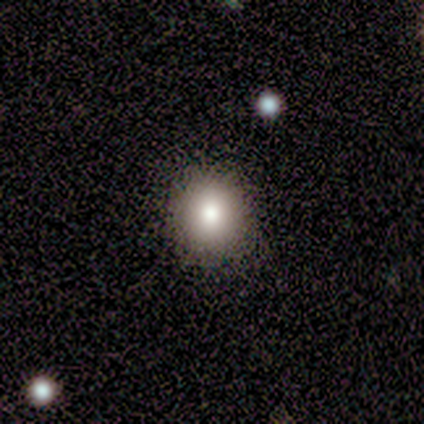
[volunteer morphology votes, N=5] Smooth or featured?
  - smooth: 60% *
  - star or artifact: 40%
  - featured or disk: 0%
How rounded?
  - round: 100% *
  - in between: 0%
  - cigar-shaped: 0%
Merging?
  - none: 100% *
  - minor disturbance: 0%
  - major disturbance: 0%
  - merger: 0%